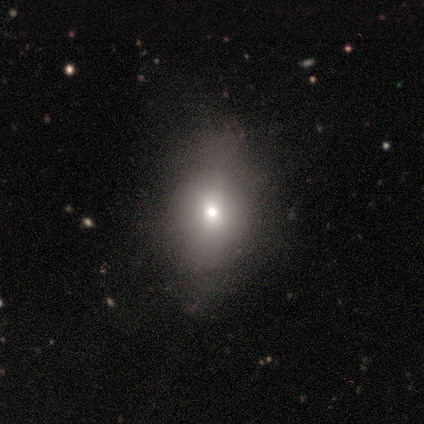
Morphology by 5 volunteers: Smooth or featured?
  - smooth: 100% *
  - featured or disk: 0%
  - star or artifact: 0%
How rounded?
  - round: 40% * (tied)
  - in between: 40% * (tied)
  - cigar-shaped: 20%
Merging?
  - none: 60% *
  - minor disturbance: 20%
  - major disturbance: 20%
  - merger: 0%